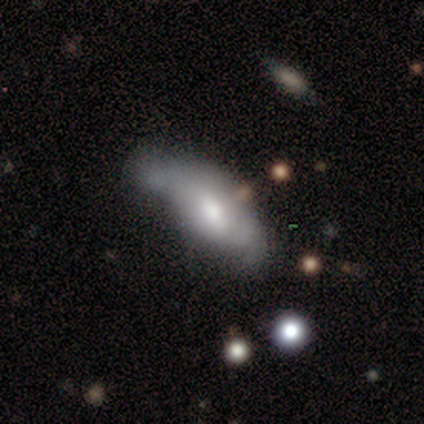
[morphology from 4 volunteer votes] smooth_or_featured: smooth (p=1.00)
how_rounded: in between (p=0.75) [alt: cigar-shaped p=0.25]
merging: minor disturbance (p=0.50) [tied with: major disturbance p=0.50]